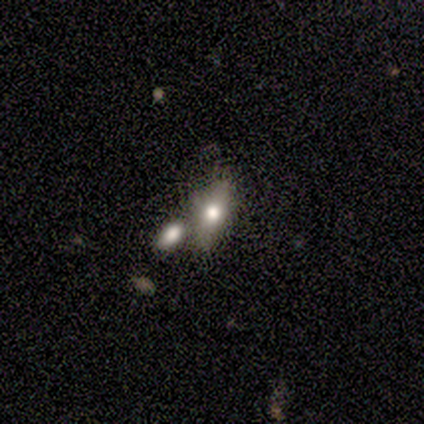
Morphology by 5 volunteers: Volunteers were most divided on "merging" (3-way tie): none: 33%, minor disturbance: 33%, merger: 33%, major disturbance: 0%. More confident: how rounded — in between (100%); smooth or featured — smooth (60%).